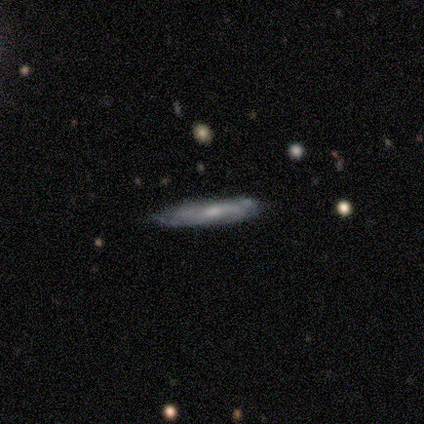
smooth_or_featured: featured or disk (p=0.50) [alt: smooth p=0.25]
disk_edge_on: yes (p=0.50) [tied with: no p=0.50]
edge_on_bulge: none (p=1.00)
merging: none (p=1.00)